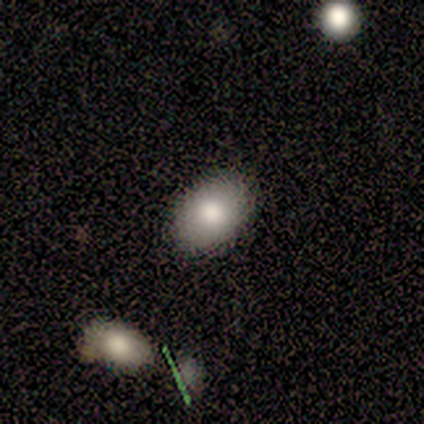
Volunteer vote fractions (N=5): Q: Smooth or featured?
A: smooth (60%); runner-up: featured or disk (40%)
Q: How rounded?
A: in between (100%)
Q: Merging?
A: none (80%); runner-up: minor disturbance (20%)